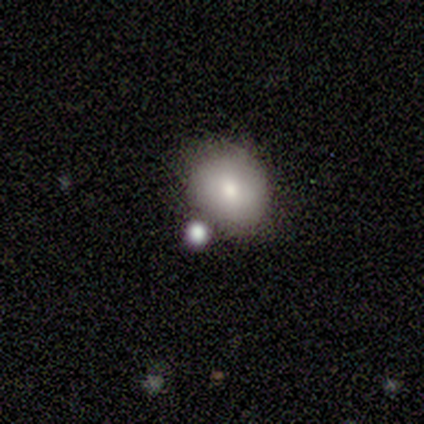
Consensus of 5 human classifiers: Morphology: type=smooth (100%); roundness=round (80%); merging=none (80%).